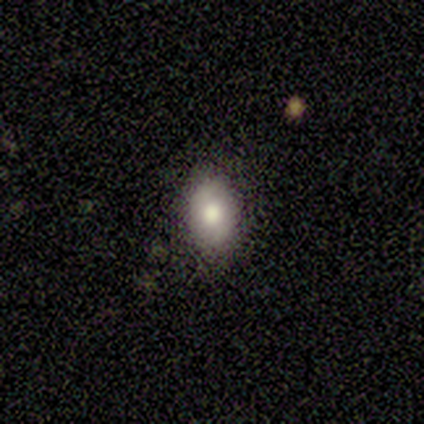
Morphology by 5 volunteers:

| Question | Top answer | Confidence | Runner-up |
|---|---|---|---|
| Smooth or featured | smooth | 100% | — |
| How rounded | in between | 100% | — |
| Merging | none | 80% | minor disturbance (20%) |